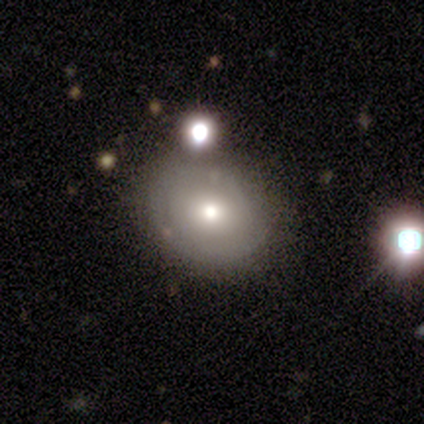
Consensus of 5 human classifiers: smooth 80%, featured or disk 20%, star or artifact 0%. Down the decision tree: how rounded — round (75%); merging — none (40%, tied with minor disturbance).